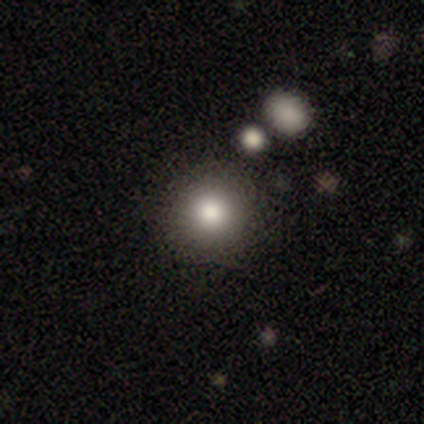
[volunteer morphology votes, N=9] Smooth or featured? smooth (89%)
How rounded? round (100%)
Merging? none (100%)